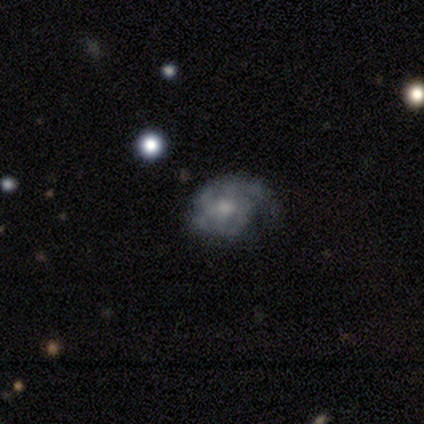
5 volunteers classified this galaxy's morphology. smooth_or_featured: featured or disk (p=0.80) [alt: smooth p=0.20]
disk_edge_on: no (p=1.00)
bar: weak (p=0.50) [tied with: no p=0.50]
has_spiral_arms: yes (p=1.00)
spiral_winding: tight (p=0.50) [tied with: medium p=0.50]
spiral_arm_count: 2 (p=0.75) [alt: 1 p=0.25]
bulge_size: moderate (p=0.75) [alt: small p=0.25]
merging: none (p=0.80) [alt: minor disturbance p=0.20]